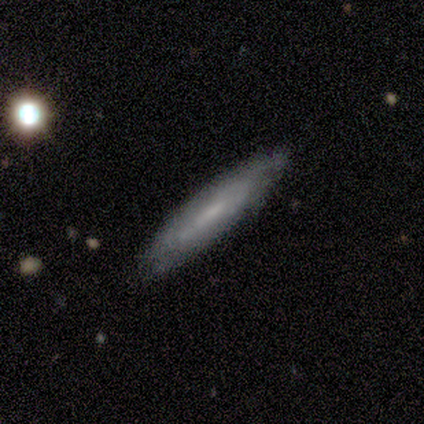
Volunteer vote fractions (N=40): Q: Smooth or featured?
A: featured or disk (60%); runner-up: smooth (35%)
Q: Edge-on disk?
A: yes (62%); runner-up: no (38%)
Q: Edge-on bulge?
A: none (80%); runner-up: rounded (13%)
Q: Merging?
A: none (82%); runner-up: minor disturbance (13%)